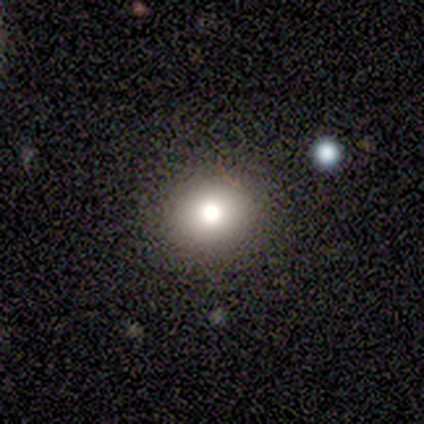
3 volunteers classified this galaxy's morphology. A smooth galaxy with no disk features (100%) that is round (100%). Merging: none (100%).